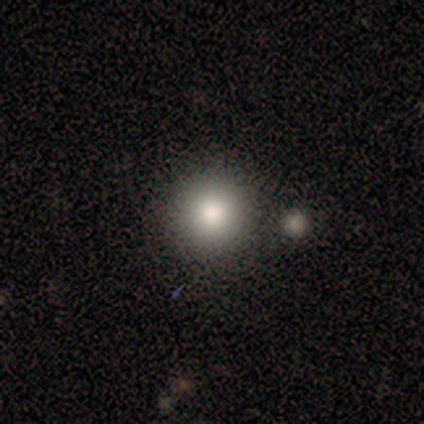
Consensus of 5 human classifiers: This is marginally a smooth galaxy (40%, tied with featured or disk). How rounded: clearly round (100%). Merging: likely none (75%).